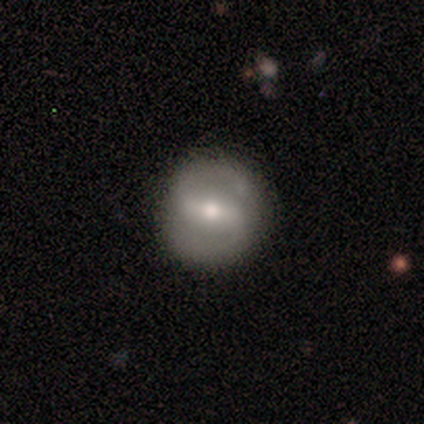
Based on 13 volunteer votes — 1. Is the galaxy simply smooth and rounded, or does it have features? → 69% featured or disk, 23% smooth, 8% star or artifact.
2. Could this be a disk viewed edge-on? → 100% no, 0% yes.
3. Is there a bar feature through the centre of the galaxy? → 56% strong, 33% weak, 11% no.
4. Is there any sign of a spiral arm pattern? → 78% yes, 22% no.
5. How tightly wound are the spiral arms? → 43% medium (tied), 43% loose (tied), 14% tight.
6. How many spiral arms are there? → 100% 2, 0% 1, 0% 3, 0% 4, 0% more than 4, 0% can't tell.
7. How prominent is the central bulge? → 44% small, 33% moderate, 22% large, 0% dominant, 0% none.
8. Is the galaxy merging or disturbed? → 100% none, 0% minor disturbance, 0% major disturbance, 0% merger.